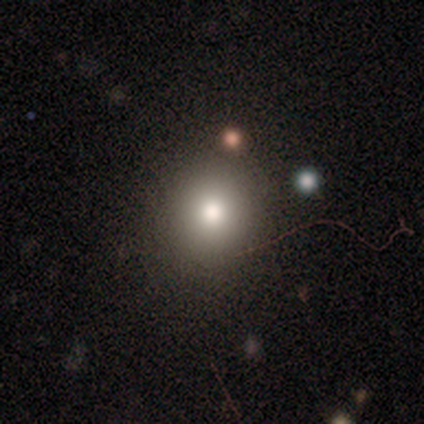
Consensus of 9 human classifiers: A smooth galaxy with no disk features (67%) that is round (83%). Merging: none (67%).